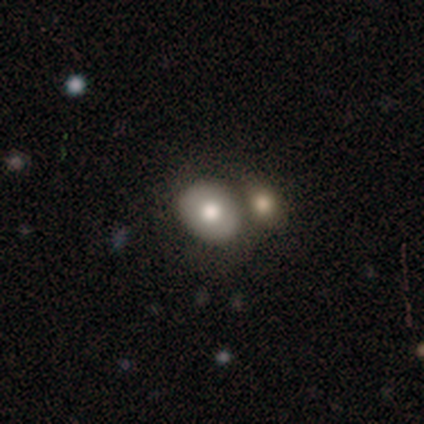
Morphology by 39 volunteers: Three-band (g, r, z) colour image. It shows a smooth galaxy with no disk features (67%) that is in between round and cigar-shaped (65%). Merging: merger (55%).